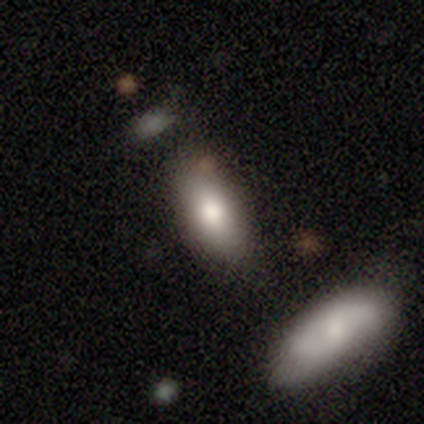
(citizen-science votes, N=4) Smooth or featured: smooth — 100%
How rounded: in between — 100%
Merging: none — 100%